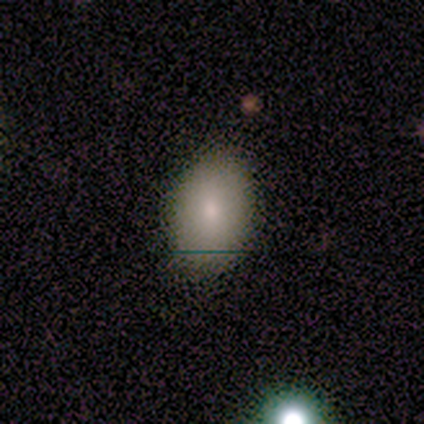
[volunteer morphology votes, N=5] Smooth or featured?
  - smooth: 80% *
  - featured or disk: 20%
  - star or artifact: 0%
How rounded?
  - in between: 75% *
  - round: 25%
  - cigar-shaped: 0%
Merging?
  - none: 80% *
  - major disturbance: 20%
  - minor disturbance: 0%
  - merger: 0%